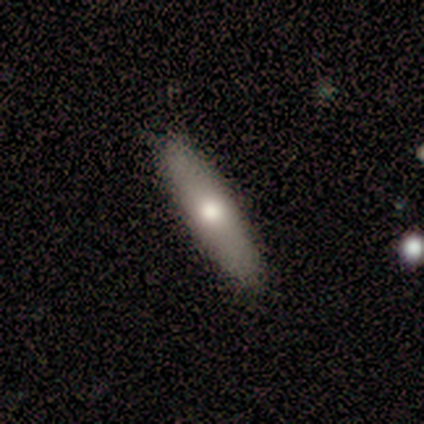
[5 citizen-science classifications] smooth_or_featured: smooth (p=0.60) [alt: featured or disk p=0.40]
how_rounded: cigar-shaped (p=1.00)
merging: none (p=0.80) [alt: minor disturbance p=0.20]